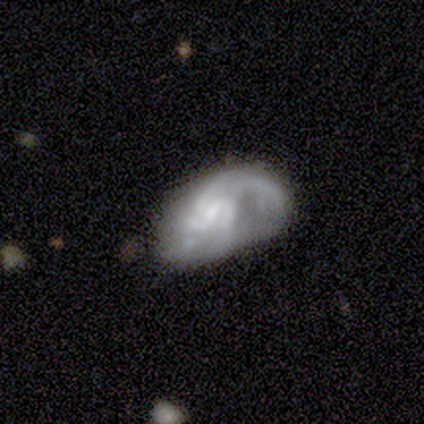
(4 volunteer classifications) Smooth or featured? 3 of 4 (75%) said featured or disk. Edge-on disk? 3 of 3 (100%) said no. Bar? 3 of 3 (100%) said weak. Spiral arms? 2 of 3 (67%) said yes. Spiral winding? 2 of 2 (100%) said medium. Spiral arm count? 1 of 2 (50%, tied with can't tell) said 4. Bulge size? 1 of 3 (33%, tied with small and none) said moderate. Merging? 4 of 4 (100%) said major disturbance.